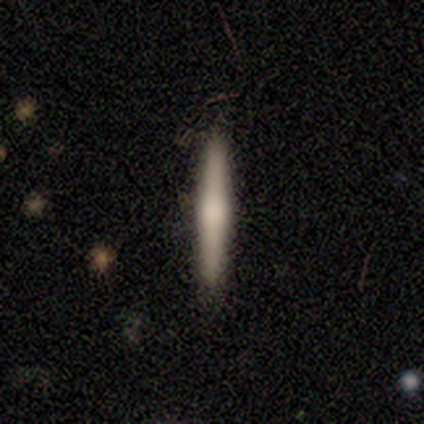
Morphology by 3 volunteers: Smooth or featured? 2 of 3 (67%) said smooth. How rounded? 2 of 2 (100%) said cigar-shaped. Merging? 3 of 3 (100%) said none.